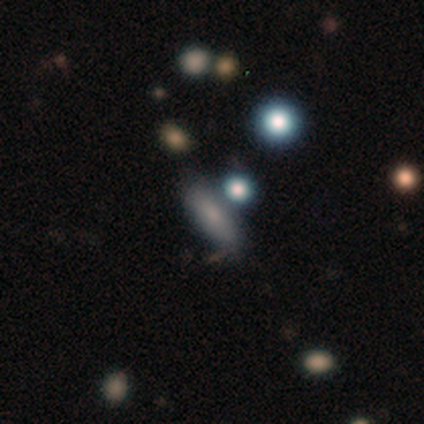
smooth_or_featured: smooth (p=0.40) [tied with: star or artifact p=0.40]
how_rounded: in between (p=0.50) [tied with: cigar-shaped p=0.50]
merging: none (p=1.00)